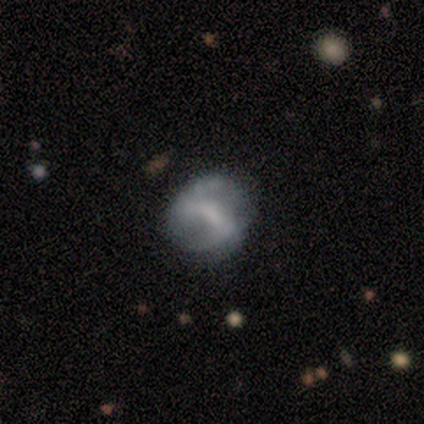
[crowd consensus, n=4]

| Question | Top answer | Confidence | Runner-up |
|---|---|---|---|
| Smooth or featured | featured or disk | 100% | — |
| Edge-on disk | no | 100% | — |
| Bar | weak | 50% | strong (25%) |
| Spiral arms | no | 75% | yes (25%) |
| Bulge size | large | 25% | tied: moderate (25%), small (25%), none (25%) |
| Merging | none | 50% | minor disturbance (25%) |